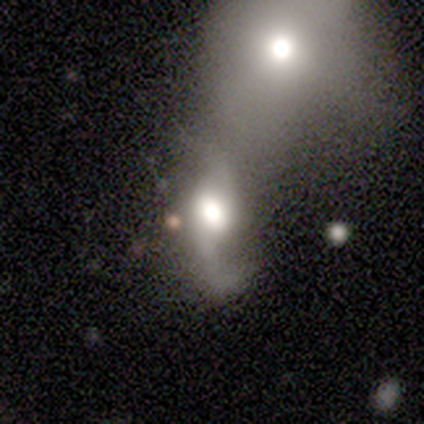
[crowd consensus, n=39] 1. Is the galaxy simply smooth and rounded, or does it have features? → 72% featured or disk, 18% smooth, 10% star or artifact.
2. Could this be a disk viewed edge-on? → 100% no, 0% yes.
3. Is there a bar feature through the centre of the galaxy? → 54% no, 29% weak, 18% strong.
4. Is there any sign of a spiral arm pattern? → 93% yes, 7% no.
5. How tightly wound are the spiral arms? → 88% loose, 12% medium, 0% tight.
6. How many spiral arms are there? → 88% 2, 12% 1, 0% 3, 0% 4, 0% more than 4, 0% can't tell.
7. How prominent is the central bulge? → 71% large, 29% moderate, 0% dominant, 0% small, 0% none.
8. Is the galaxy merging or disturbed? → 71% merger, 11% minor disturbance, 9% none, 9% major disturbance.